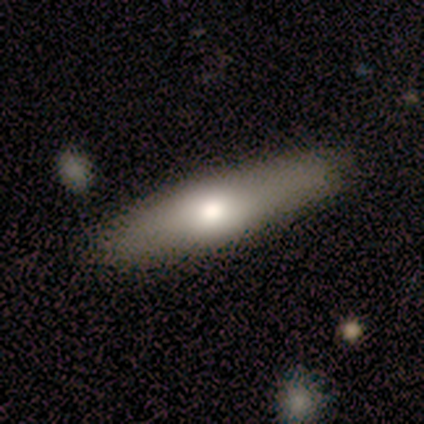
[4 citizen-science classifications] Smooth or featured: smooth — 50% (tied with featured or disk — 50%)
How rounded: cigar-shaped — 100%
Merging: none — 75% (merger — 25%)